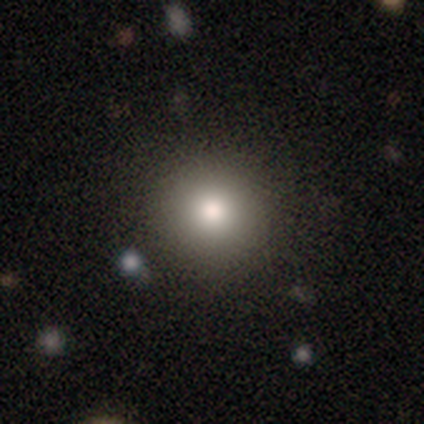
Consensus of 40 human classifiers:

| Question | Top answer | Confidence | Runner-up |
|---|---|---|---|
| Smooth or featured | smooth | 85% | star or artifact (12%) |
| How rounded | round | 91% | in between (9%) |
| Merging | none | 89% | minor disturbance (6%) |